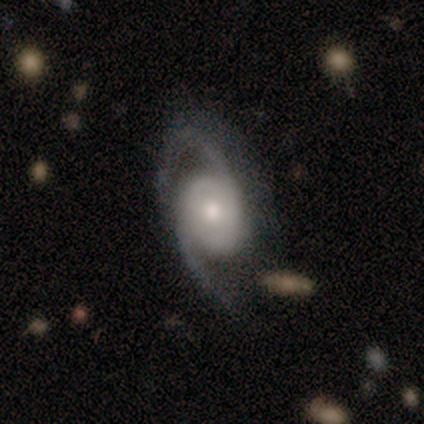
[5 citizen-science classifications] Smooth or featured? featured or disk (60%)
Edge-on disk? no (100%)
Bar? weak (100%)
Spiral arms? yes (67%)
Spiral winding? medium (100%)
Spiral arm count? 2 (100%)
Bulge size? small (67%)
Merging? none (100%)